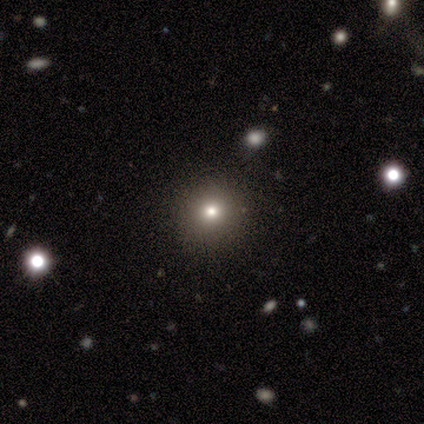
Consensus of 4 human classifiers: Smooth or featured? smooth (75%)
How rounded? round (67%)
Merging? none (100%)